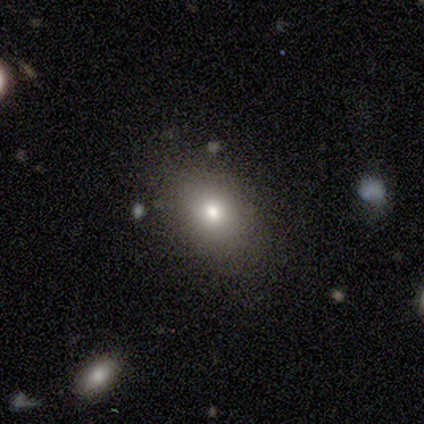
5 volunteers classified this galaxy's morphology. Overall: smooth (100%). How rounded: round (60%; in between 40%). Merging: none (100%).